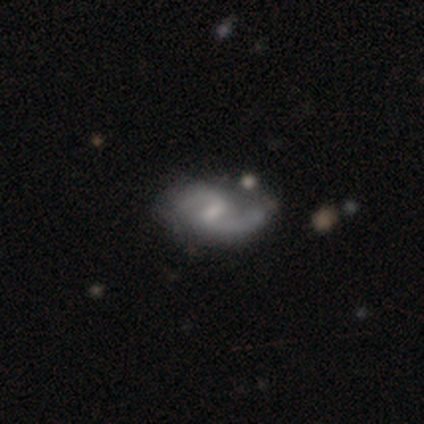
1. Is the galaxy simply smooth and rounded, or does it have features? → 82% featured or disk, 10% star or artifact, 8% smooth.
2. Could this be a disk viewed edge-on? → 97% no, 3% yes.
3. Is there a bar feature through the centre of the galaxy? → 75% weak, 16% no, 9% strong.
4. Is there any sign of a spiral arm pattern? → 94% yes, 6% no.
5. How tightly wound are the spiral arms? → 50% loose, 47% medium, 3% tight.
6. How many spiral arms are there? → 93% 2, 3% 1, 3% can't tell, 0% 3, 0% 4, 0% more than 4.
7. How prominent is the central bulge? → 44% small, 28% moderate, 22% none, 6% dominant, 0% large.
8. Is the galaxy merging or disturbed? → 61% none, 22% minor disturbance, 14% merger, 3% major disturbance.